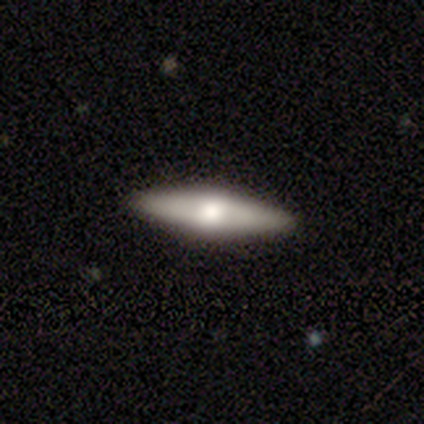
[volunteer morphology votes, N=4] This appears to be a smooth galaxy with no disk features (50%, tied with featured or disk) that is in between round and cigar-shaped (50%, tied with cigar-shaped). Merging: none (100%).